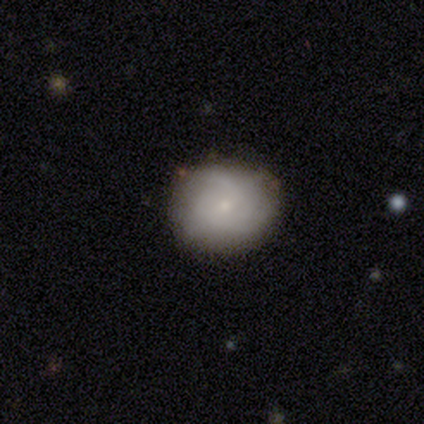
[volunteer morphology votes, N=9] Volunteers were most divided on "merging" (2-way tie): none: 50%, minor disturbance: 50%, major disturbance: 0%, merger: 0%. More confident: how rounded — round (100%); smooth or featured — smooth (56%).